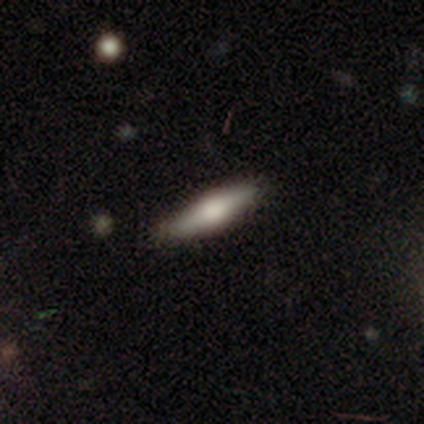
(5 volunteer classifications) Smooth or featured?
  - featured or disk: 60% *
  - smooth: 40%
  - star or artifact: 0%
Edge-on disk?
  - yes: 100% *
  - no: 0%
Edge-on bulge?
  - rounded: 67% *
  - boxy: 33%
  - none: 0%
Merging?
  - none: 100% *
  - minor disturbance: 0%
  - major disturbance: 0%
  - merger: 0%